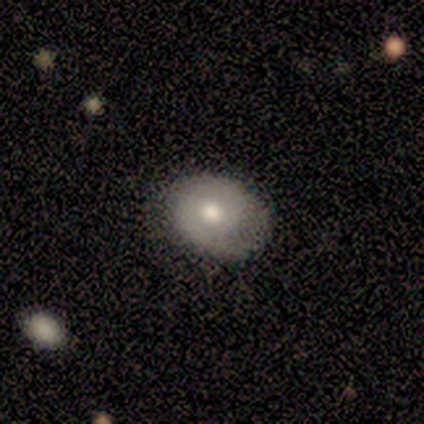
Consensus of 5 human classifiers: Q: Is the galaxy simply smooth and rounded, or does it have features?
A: smooth — 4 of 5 (80%).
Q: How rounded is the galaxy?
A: in between — 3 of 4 (75%).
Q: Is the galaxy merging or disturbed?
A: none — 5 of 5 (100%).